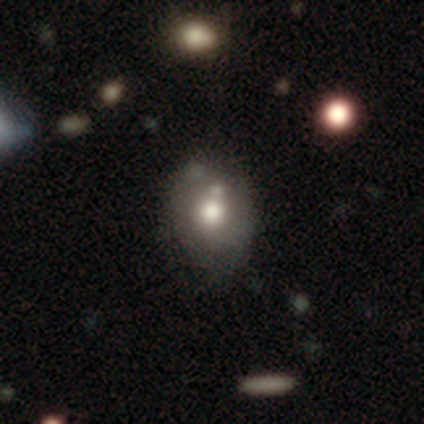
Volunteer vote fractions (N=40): Smooth or featured?
  - smooth: 72% *
  - featured or disk: 28%
  - star or artifact: 0%
How rounded?
  - round: 55% *
  - in between: 45%
  - cigar-shaped: 0%
Merging?
  - none: 40% *
  - merger: 22%
  - minor disturbance: 12%
  - major disturbance: 2%